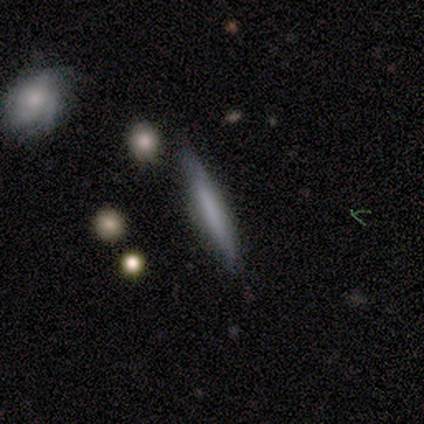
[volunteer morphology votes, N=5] type=smooth (60%); roundness=cigar-shaped (67%); merging=none (80%).